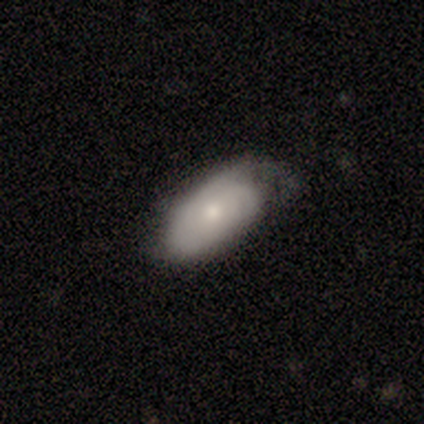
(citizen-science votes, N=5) A smooth galaxy with no disk features (60%) that is in between round and cigar-shaped (100%). Merging: none (75%).